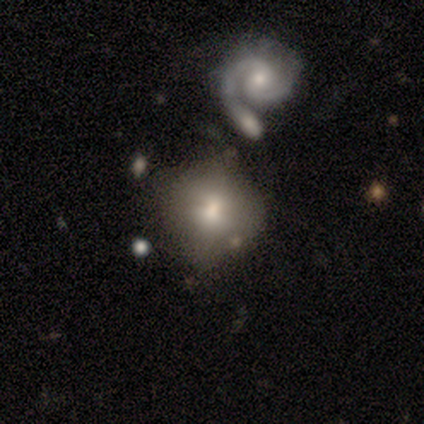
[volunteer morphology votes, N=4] Q: Smooth or featured?
A: smooth (50%); tied with: featured or disk (50%)
Q: How rounded?
A: round (100%)
Q: Merging?
A: none (25%); tied with: minor disturbance (25%); major disturbance (25%); merger (25%)